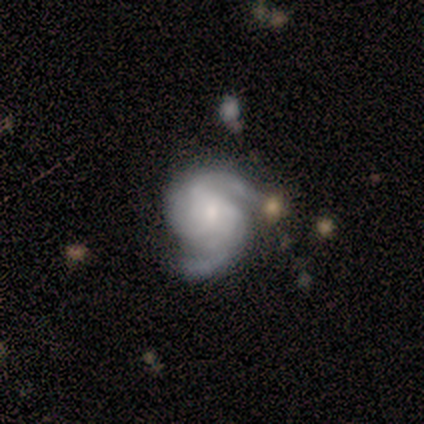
Smooth or featured?
  - featured or disk: 85% *
  - smooth: 10%
  - star or artifact: 5%
Edge-on disk?
  - no: 100% *
  - yes: 0%
Bar?
  - no: 71% *
  - weak: 24%
  - strong: 6%
Spiral arms?
  - yes: 98% *
  - no: 2%
Spiral winding?
  - medium: 52% *
  - tight: 30%
  - loose: 18%
Spiral arm count?
  - 2: 80% *
  - 3: 8%
  - can't tell: 8%
  - 1: 2%
  - 4: 2%
  - more than 4: 0%
Bulge size?
  - small: 53% *
  - moderate: 35%
  - dominant: 4%
  - large: 4%
  - none: 4%
Merging?
  - none: 63% *
  - minor disturbance: 26%
  - major disturbance: 9%
  - merger: 2%